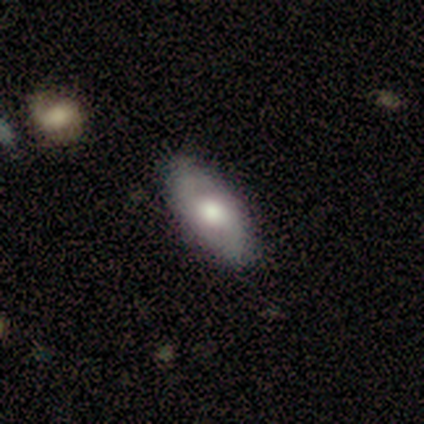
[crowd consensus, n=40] A featured or disk galaxy (45%) with no bar (69%), 2 (90%) loose (60%) spiral arms (62%) and a moderate central bulge (44%).

Vote fractions:
- Smooth or featured? featured or disk: 45% / smooth: 42% / star or artifact: 12%
- Edge-on disk? no: 89% / yes: 11%
- Bar? no: 69% / strong: 19% / weak: 12%
- Spiral arms? yes: 62% / no: 38%
- Spiral winding? loose: 60% / medium: 30% / tight: 10%
- Spiral arm count? 2: 90% / can't tell: 10% / 1: 0% / 3: 0% / 4: 0% / more than 4: 0%
- Bulge size? moderate: 44% / dominant: 25% / large: 12% / none: 12% / small: 6%
- Merging? none: 89% / minor disturbance: 9% / major disturbance: 3% / merger: 0%